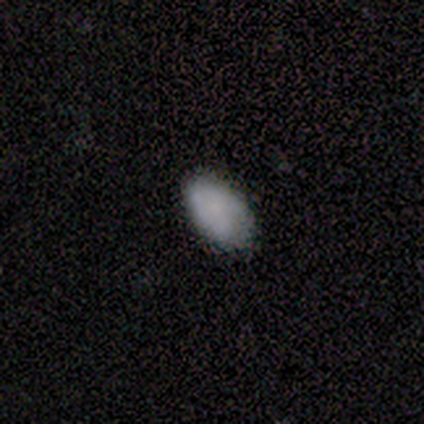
smooth 80%, star or artifact 20%, featured or disk 0%. Down the decision tree: how rounded — in between (100%); merging — none (75%).